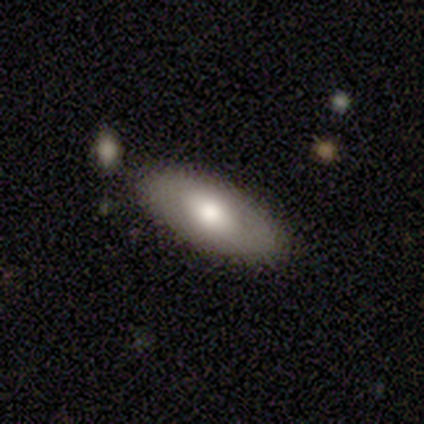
featured or disk 60%, smooth 40%, star or artifact 0%. Down the decision tree: edge-on disk — no (100%); bar — no (67%); spiral arms — no (100%); bulge size — moderate (100%); merging — none (100%).